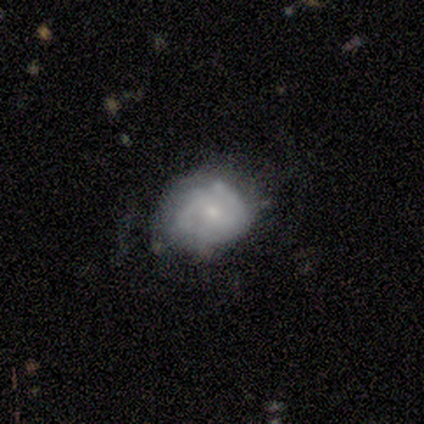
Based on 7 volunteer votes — smooth 57%, featured or disk 43%, star or artifact 0%. Down the decision tree: how rounded — round (50%, tied with in between); merging — none (71%).